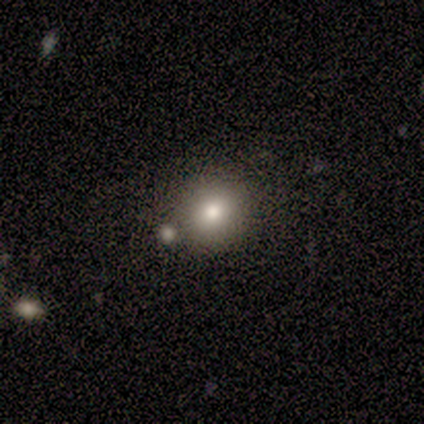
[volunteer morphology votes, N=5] smooth_or_featured: smooth (p=0.60) [alt: featured or disk p=0.20]
how_rounded: round (p=1.00)
merging: none (p=1.00)